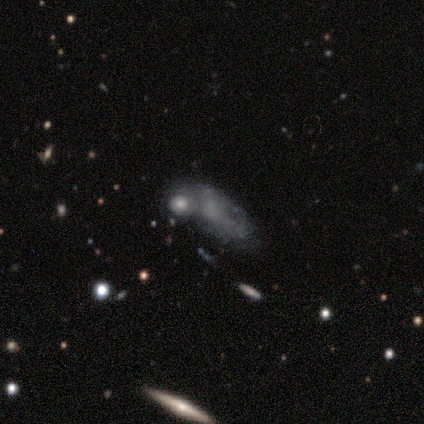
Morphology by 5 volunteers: smooth-or-featured: featured or disk: 80% | star or artifact: 20% | smooth: 0%
  disk-edge-on: no: 100% | yes: 0%
    bar: no: 100% | strong: 0% | weak: 0%
    has-spiral-arms: no: 100% | yes: 0%
    bulge-size: none: 75% | moderate: 25% | dominant: 0% | large: 0% | small: 0%
  merging: merger: 100% | none: 0% | minor disturbance: 0% | major disturbance: 0%